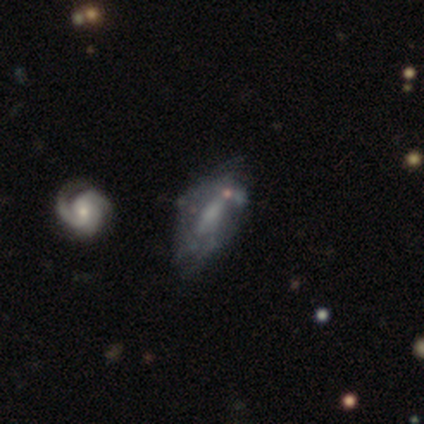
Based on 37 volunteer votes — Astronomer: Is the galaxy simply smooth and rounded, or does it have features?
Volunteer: featured or disk — 68%.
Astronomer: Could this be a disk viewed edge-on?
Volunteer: no — 88%.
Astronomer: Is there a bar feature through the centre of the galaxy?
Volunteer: no — 50% (runner-up: weak, 27%).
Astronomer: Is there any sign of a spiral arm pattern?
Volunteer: yes — 55% (runner-up: no, 45%).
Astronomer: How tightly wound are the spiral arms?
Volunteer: tight — 67%.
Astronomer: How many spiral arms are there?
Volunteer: can't tell — 58%.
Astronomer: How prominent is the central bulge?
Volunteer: none — 50% (runner-up: moderate, 27%).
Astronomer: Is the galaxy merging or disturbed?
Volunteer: none — 38% (runner-up: minor disturbance, 26%).